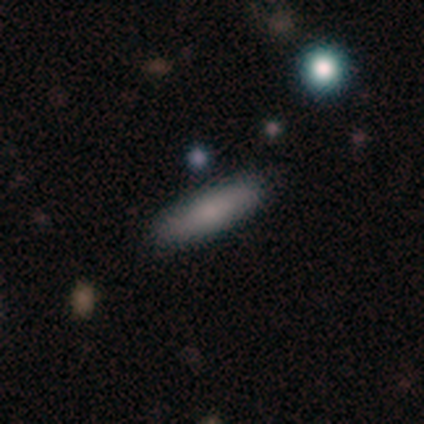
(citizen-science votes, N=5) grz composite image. It shows a smooth galaxy with no disk features (100%) that is cigar-shaped (80%). Merging: none (100%).